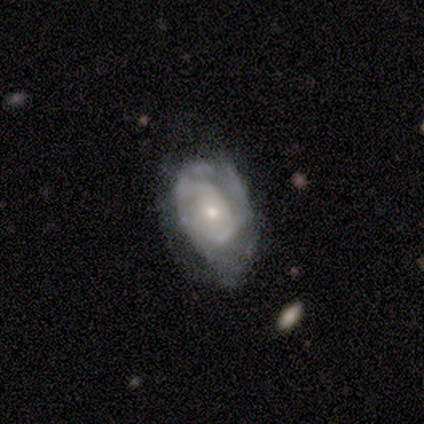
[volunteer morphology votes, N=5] Q: Smooth or featured?
A: featured or disk (100%)
Q: Edge-on disk?
A: no (100%)
Q: Bar?
A: no (60%); runner-up: strong (20%)
Q: Spiral arms?
A: yes (60%); runner-up: no (40%)
Q: Spiral winding?
A: tight (67%); runner-up: medium (33%)
Q: Spiral arm count?
A: 2 (33%); tied with: 4 (33%); can't tell (33%)
Q: Bulge size?
A: small (60%); runner-up: moderate (40%)
Q: Merging?
A: none (40%); tied with: minor disturbance (40%)